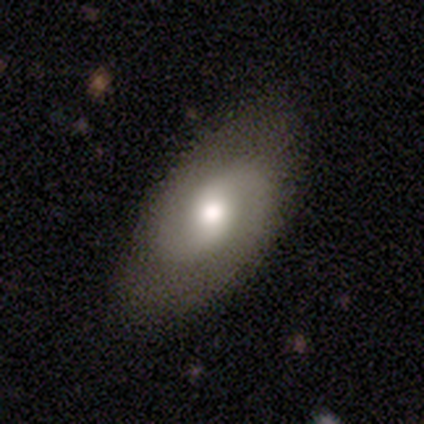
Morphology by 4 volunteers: smooth-or-featured: smooth: 50% (tied) | featured or disk: 50% (tied) | star or artifact: 0%
  how-rounded: in between: 100% | round: 0% | cigar-shaped: 0%
  merging: none: 75% | minor disturbance: 25% | major disturbance: 0% | merger: 0%